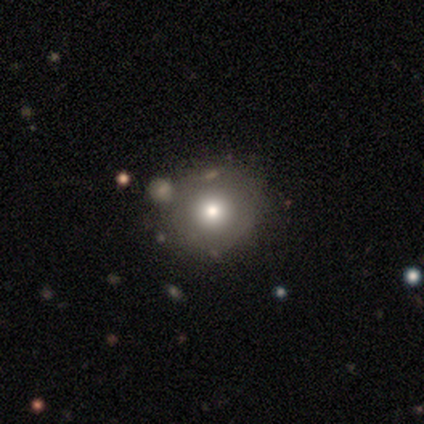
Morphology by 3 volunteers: Smooth or featured: smooth — 67% (featured or disk — 33%)
How rounded: round — 50% (tied with in between — 50%)
Merging: none — 67% (minor disturbance — 33%)